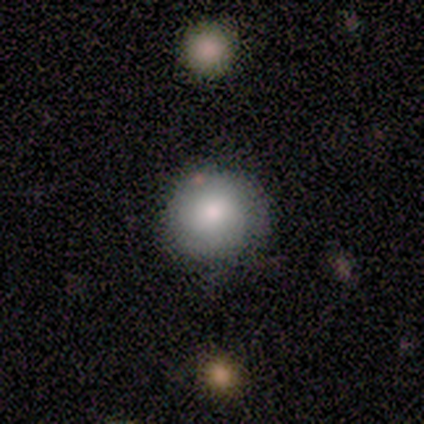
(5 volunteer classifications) Q: Smooth or featured?
A: smooth (100%)
Q: How rounded?
A: round (100%)
Q: Merging?
A: none (100%)